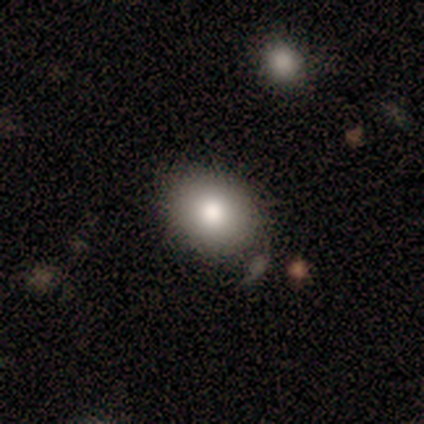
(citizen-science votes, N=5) smooth_or_featured: smooth (p=1.00)
how_rounded: in between (p=0.60) [alt: round p=0.40]
merging: none (p=0.60) [alt: minor disturbance p=0.20]